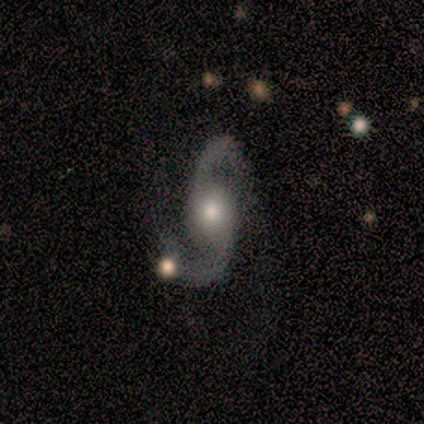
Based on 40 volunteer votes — smooth_or_featured: featured or disk (p=0.97) [alt: smooth p=0.03]
disk_edge_on: no (p=0.92) [alt: yes p=0.08]
bar: no (p=0.67) [alt: strong p=0.17]
has_spiral_arms: yes (p=0.94) [alt: no p=0.06]
spiral_winding: loose (p=0.68) [alt: medium p=0.26]
spiral_arm_count: 2 (p=0.97) [alt: can't tell p=0.03]
bulge_size: moderate (p=0.67) [alt: large p=0.19]
merging: none (p=0.60) [alt: minor disturbance p=0.20]